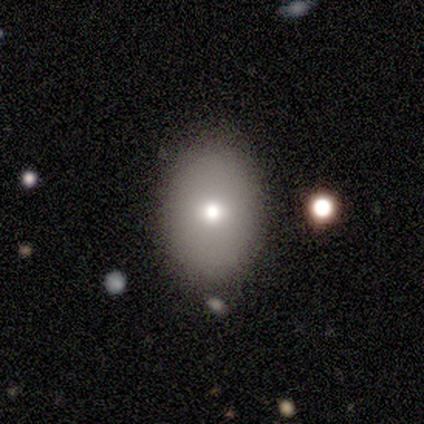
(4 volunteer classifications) Volunteers were most divided on "smooth or featured": smooth: 75%, star or artifact: 25%, featured or disk: 0%. More confident: how rounded — in between (100%); merging — none (100%).